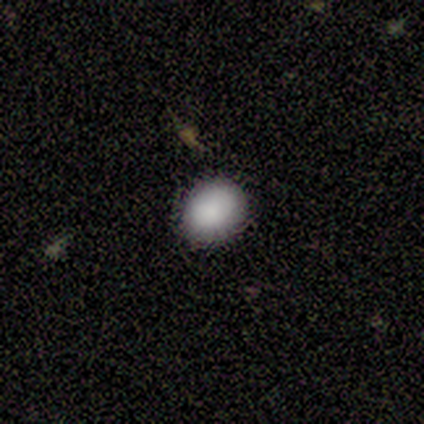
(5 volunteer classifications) Q: Smooth or featured?
A: smooth (100%)
Q: How rounded?
A: in between (60%); runner-up: round (40%)
Q: Merging?
A: none (80%); runner-up: minor disturbance (20%)